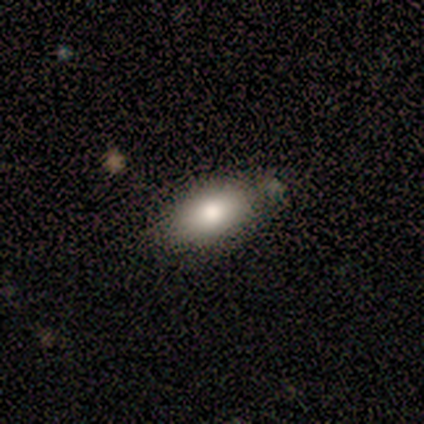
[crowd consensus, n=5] Overall: smooth (60%; star or artifact 40%). How rounded: in between (100%). Merging: none (67%; minor disturbance 33%).